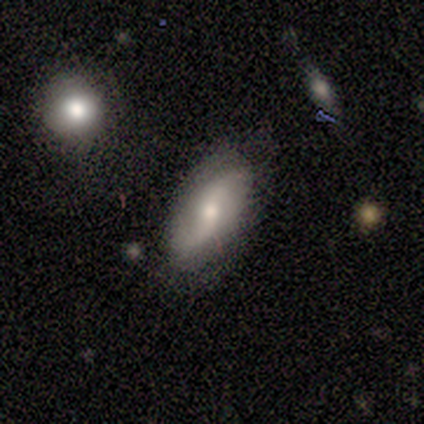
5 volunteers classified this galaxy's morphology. This appears to be a featured or disk galaxy (60%) with no bar (100%), 2 (100%) loose (67%) spiral arms (100%) and a moderate central bulge (67%). Merging: none (80%).